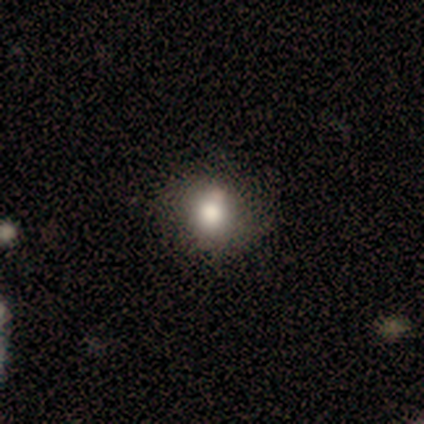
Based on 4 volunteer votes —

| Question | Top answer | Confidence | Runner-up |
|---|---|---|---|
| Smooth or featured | smooth | 50% | tied: star or artifact (50%) |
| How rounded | round | 50% | tied: in between (50%) |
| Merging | none | 50% | tied: minor disturbance (50%) |